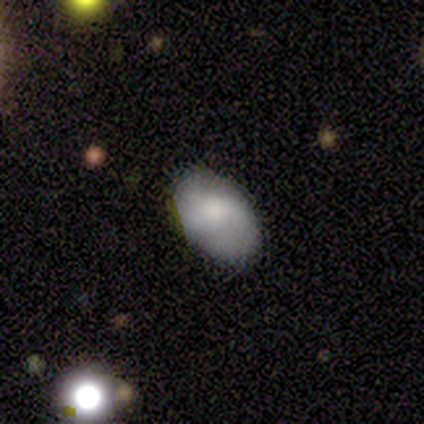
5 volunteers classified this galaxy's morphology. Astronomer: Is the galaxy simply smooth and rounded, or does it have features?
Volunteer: smooth — 80%.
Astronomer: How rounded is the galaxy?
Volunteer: in between — 100%.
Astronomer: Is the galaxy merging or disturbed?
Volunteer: none — 100%.